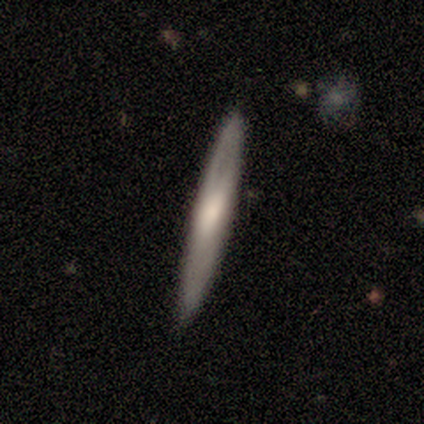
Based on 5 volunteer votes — This is likely a featured or disk galaxy (60%). It is clearly viewed edge-on (100%). Edge-on bulge: clearly rounded (100%). Merging: clearly none (100%).